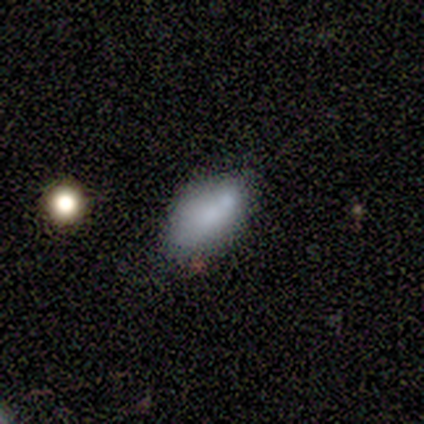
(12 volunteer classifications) smooth 67%, featured or disk 25%, star or artifact 8%. Down the decision tree: how rounded — in between (100%); merging — none (55%).